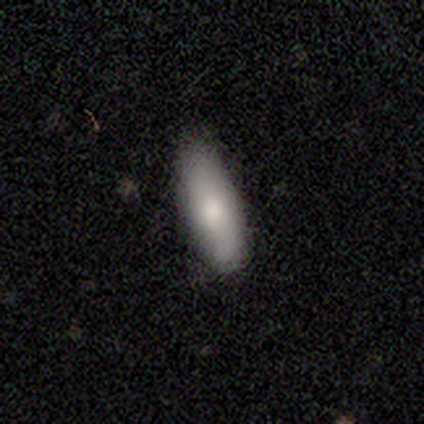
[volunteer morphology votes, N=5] type=smooth (100%); roundness=in between (60%); merging=none (100%).